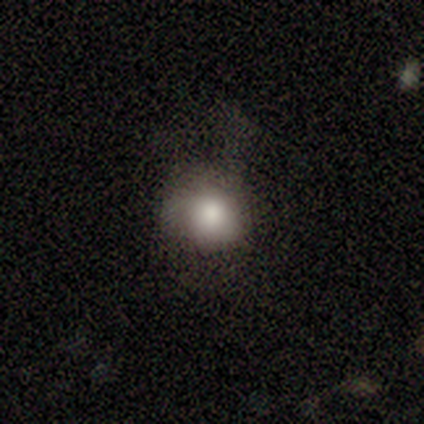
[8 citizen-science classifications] A smooth galaxy with no disk features (100%) that is round (88%). Merging: none (75%).